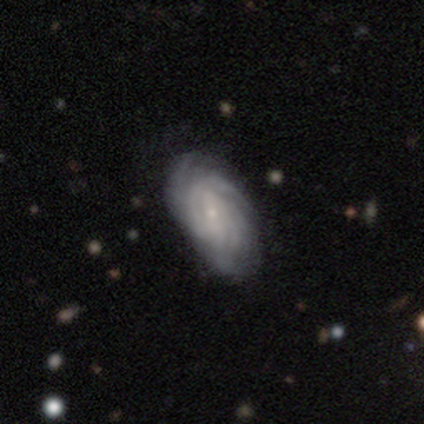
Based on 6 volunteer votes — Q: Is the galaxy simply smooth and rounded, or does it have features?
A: featured or disk — 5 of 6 (83%).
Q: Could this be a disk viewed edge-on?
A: no — 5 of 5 (100%).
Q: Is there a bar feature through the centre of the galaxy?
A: weak — 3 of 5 (60%).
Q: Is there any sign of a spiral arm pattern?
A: yes — 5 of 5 (100%).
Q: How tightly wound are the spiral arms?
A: tight — 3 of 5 (60%).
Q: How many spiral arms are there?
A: more than 4 — 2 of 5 (40%, tied with can't tell).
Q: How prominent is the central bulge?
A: small — 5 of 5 (100%).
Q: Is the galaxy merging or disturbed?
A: none — 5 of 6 (83%).